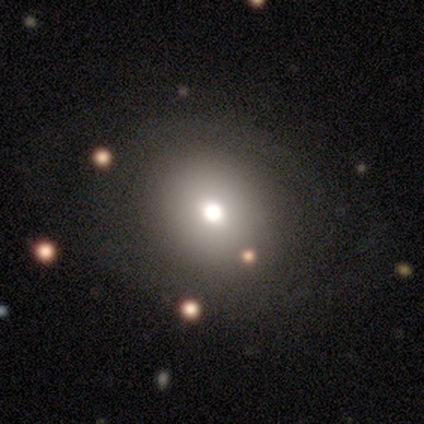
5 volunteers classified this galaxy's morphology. smooth 80%, featured or disk 20%, star or artifact 0%. Down the decision tree: how rounded — in between (75%); merging — none (80%).